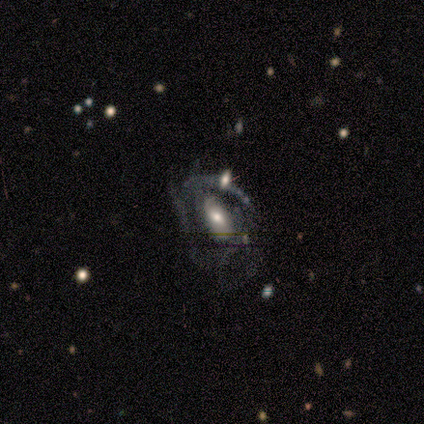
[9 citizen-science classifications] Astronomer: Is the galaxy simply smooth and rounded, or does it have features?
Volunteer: featured or disk — 89%.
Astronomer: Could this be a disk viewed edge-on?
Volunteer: no — 100%.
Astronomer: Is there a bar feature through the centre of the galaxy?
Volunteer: weak — 50% (runner-up: no, 38%).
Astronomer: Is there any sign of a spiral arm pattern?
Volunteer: yes — 88%.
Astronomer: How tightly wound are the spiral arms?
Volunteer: loose — 57% (runner-up: medium, 43%).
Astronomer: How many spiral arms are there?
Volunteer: can't tell — 57% (runner-up: 2, 43%).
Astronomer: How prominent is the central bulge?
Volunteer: moderate — 50%, tied with small at 50%.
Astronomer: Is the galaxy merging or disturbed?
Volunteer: major disturbance — 67%.